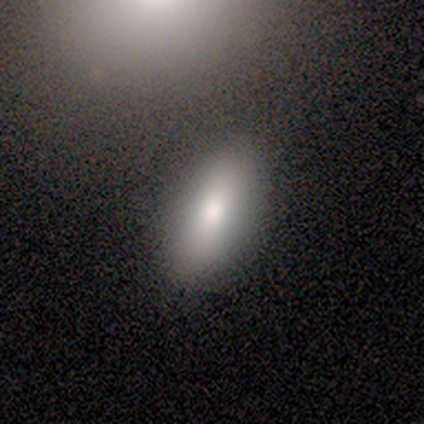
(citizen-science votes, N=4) Overall: smooth (100%). How rounded: in between (100%). Merging: none (50%; minor disturbance 25%).